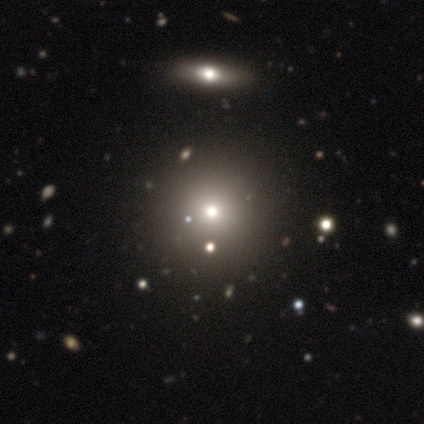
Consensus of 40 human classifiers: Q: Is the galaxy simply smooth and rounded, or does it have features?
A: smooth — 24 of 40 (60%).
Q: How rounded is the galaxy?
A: round — 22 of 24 (92%).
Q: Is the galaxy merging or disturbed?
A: none — 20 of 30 (67%).